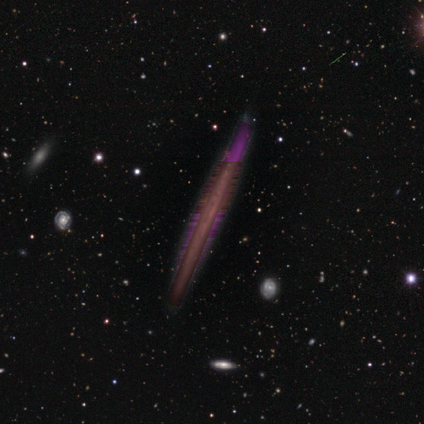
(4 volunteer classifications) A featured or disk galaxy (50%, tied with star or artifact) viewed edge-on (50%, tied with no) with no central bulge (100%).

Vote fractions:
- Smooth or featured? featured or disk: 50% (tied) / star or artifact: 50% (tied) / smooth: 0%
- Edge-on disk? yes: 50% (tied) / no: 50% (tied)
- Edge-on bulge? none: 100% / boxy: 0% / rounded: 0%
- Merging? none: 100% / minor disturbance: 0% / major disturbance: 0% / merger: 0%